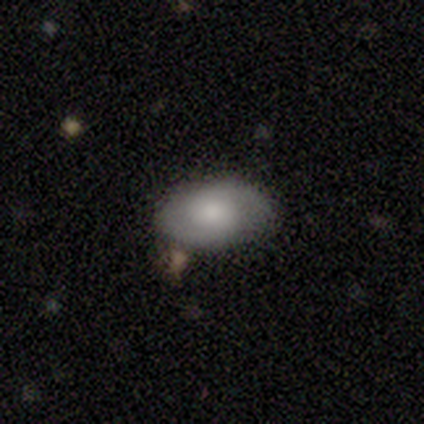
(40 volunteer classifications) Morphology: type=featured or disk (57%); edge-on=no (96%); bar=no (64%); spiral arms=yes (100%); winding=tight (50%); arm count=2 (82%); bulge=moderate (45%); merging=none (82%).